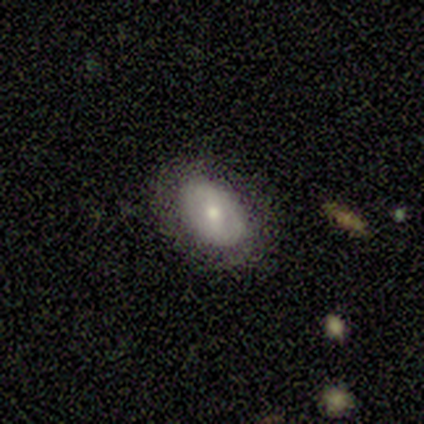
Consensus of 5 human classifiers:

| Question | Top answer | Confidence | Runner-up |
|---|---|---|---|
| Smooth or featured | smooth | 80% | featured or disk (20%) |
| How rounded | in between | 75% | round (25%) |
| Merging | none | 100% | — |